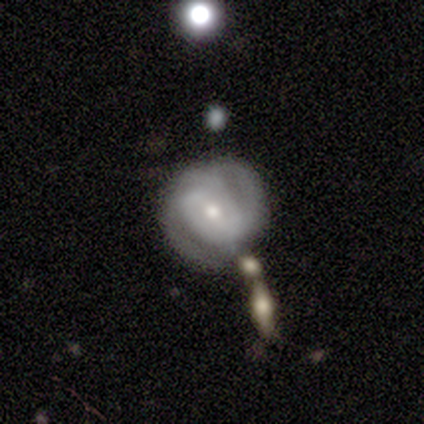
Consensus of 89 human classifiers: Overall: featured or disk (73%). Edge-on disk: no (95%). Bar: weak (44%; no 42%). Spiral arms: yes (89%). Spiral arm count: 2 (44%; can't tell 36%). Spiral winding: tight (53%; medium 36%). Bulge size: small (58%; moderate 39%). Merging: none (63%).